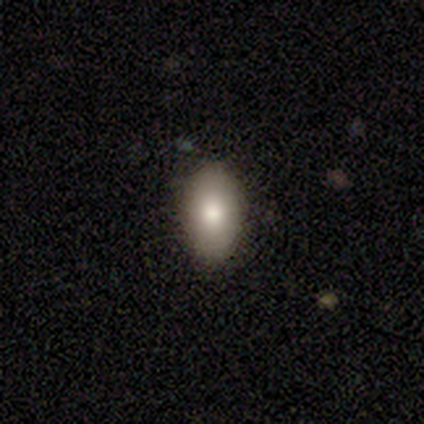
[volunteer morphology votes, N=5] This is likely a smooth galaxy (60%). How rounded: clearly in between (100%). Merging: clearly none (100%).